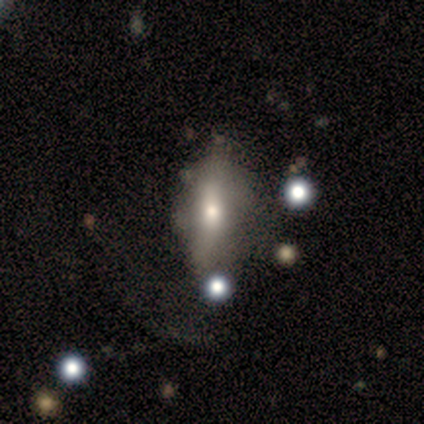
Q: Smooth or featured?
A: smooth (75%); runner-up: featured or disk (25%)
Q: How rounded?
A: in between (67%); runner-up: cigar-shaped (33%)
Q: Merging?
A: minor disturbance (50%); tied with: major disturbance (50%)